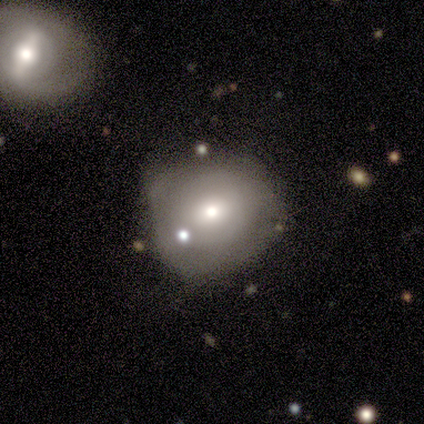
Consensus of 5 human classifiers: Overall: smooth (60%; featured or disk 40%). How rounded: round (100%). Merging: none (40%, tied with minor disturbance).